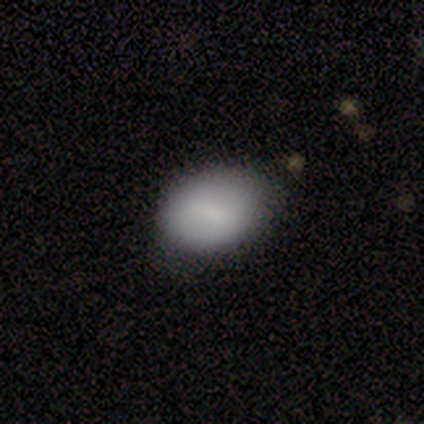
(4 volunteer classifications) Smooth or featured: smooth — 75% (star or artifact — 25%)
How rounded: in between — 100%
Merging: none — 67% (major disturbance — 33%)